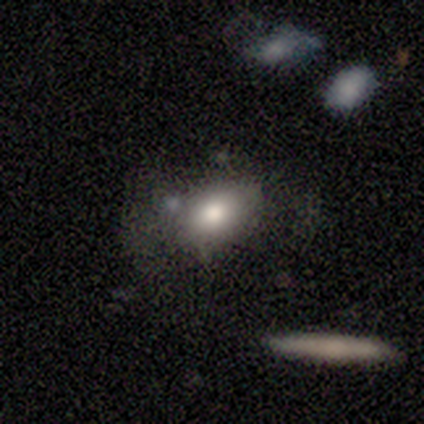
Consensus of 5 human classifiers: A smooth galaxy with no disk features (60%) that is in between round and cigar-shaped (100%).

Vote fractions:
- Smooth or featured? smooth: 60% / featured or disk: 20% / star or artifact: 20%
- How rounded? in between: 100% / round: 0% / cigar-shaped: 0%
- Merging? none: 75% / major disturbance: 25% / minor disturbance: 0% / merger: 0%